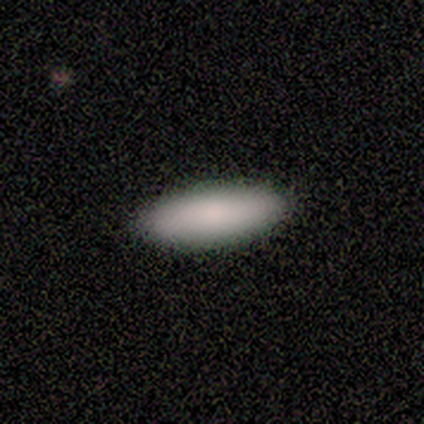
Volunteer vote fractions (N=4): Smooth or featured? smooth (75%)
How rounded? in between (67%)
Merging? none (100%)